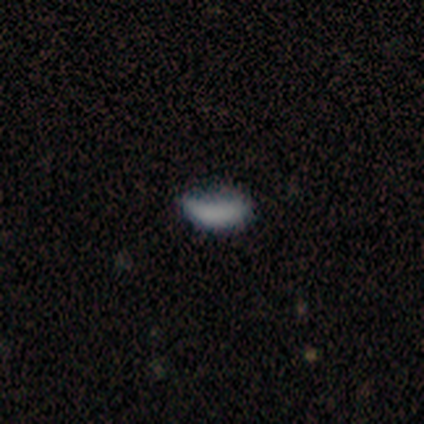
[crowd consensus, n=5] Smooth or featured?
  - smooth: 80% *
  - star or artifact: 20%
  - featured or disk: 0%
How rounded?
  - in between: 75% *
  - cigar-shaped: 25%
  - round: 0%
Merging?
  - minor disturbance: 75% *
  - none: 25%
  - major disturbance: 0%
  - merger: 0%